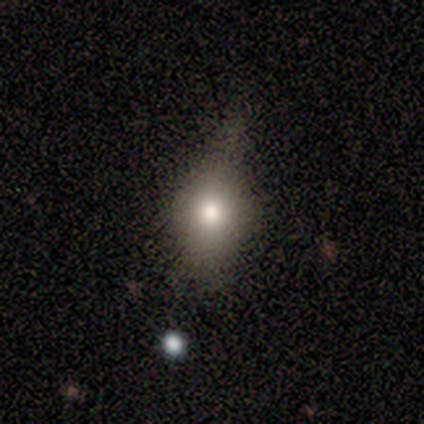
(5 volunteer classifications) Smooth or featured? 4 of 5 (80%) said smooth. How rounded? 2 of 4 (50%, tied with in between) said round. Merging? 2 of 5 (40%, tied with minor disturbance) said none.